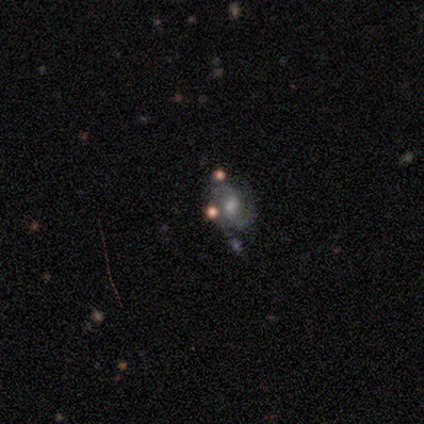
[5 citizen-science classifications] Volunteers were most divided on "bulge size": small: 60%, moderate: 20%, none: 20%, dominant: 0%, large: 0%. More confident: smooth or featured — featured or disk (100%); edge-on disk — no (100%); spiral arms — yes (100%); bar — weak (80%); spiral winding — medium (80%); spiral arm count — 2 (80%); merging — none (80%).